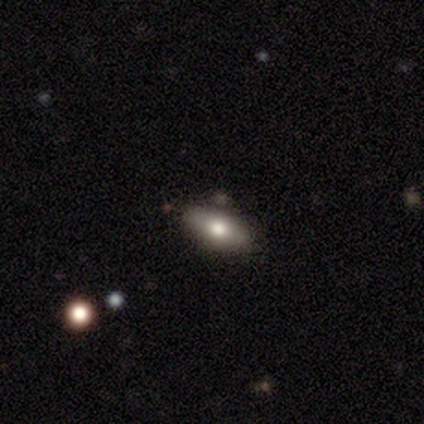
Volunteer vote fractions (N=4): Q: Smooth or featured?
A: smooth (50%); runner-up: featured or disk (25%)
Q: How rounded?
A: in between (100%)
Q: Merging?
A: none (67%); runner-up: minor disturbance (33%)